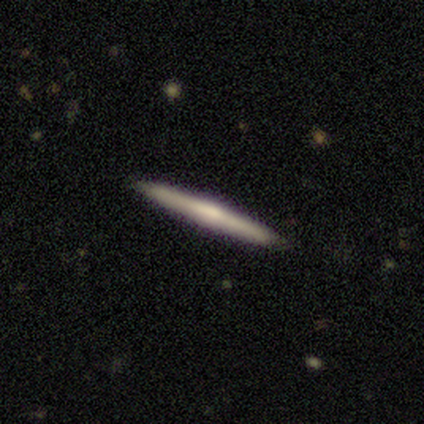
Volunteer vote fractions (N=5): smooth-or-featured: featured or disk: 80% | smooth: 20% | star or artifact: 0%
  disk-edge-on: yes: 100% | no: 0%
    edge-on-bulge: rounded: 75% | none: 25% | boxy: 0%
  merging: none: 80% | minor disturbance: 20% | major disturbance: 0% | merger: 0%